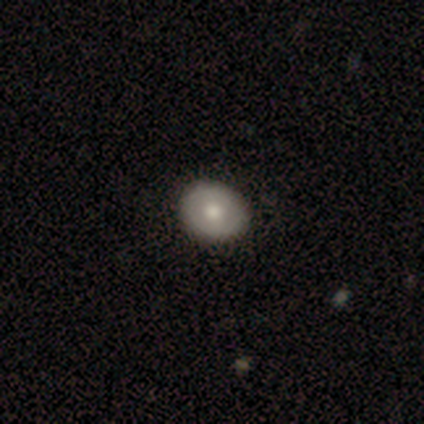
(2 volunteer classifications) smooth-or-featured: smooth: 100% | featured or disk: 0% | star or artifact: 0%
  how-rounded: round: 100% | in between: 0% | cigar-shaped: 0%
  merging: none: 50% (tied) | major disturbance: 50% (tied) | minor disturbance: 0% | merger: 0%